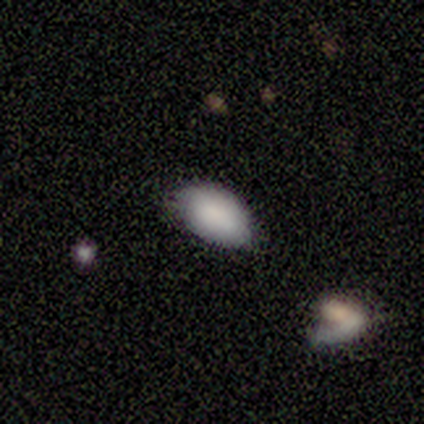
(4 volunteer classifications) smooth_or_featured: smooth (p=1.00)
how_rounded: in between (p=1.00)
merging: none (p=0.50) [tied with: minor disturbance p=0.50]